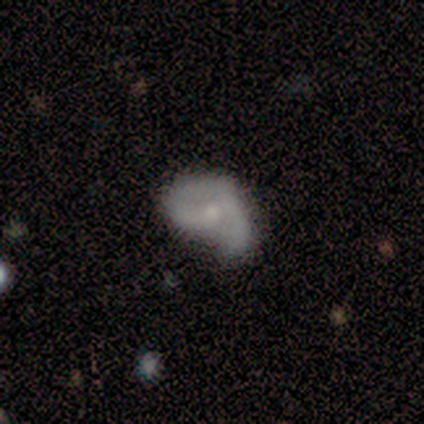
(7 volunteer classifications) smooth_or_featured: smooth (p=0.57) [alt: featured or disk p=0.43]
how_rounded: in between (p=0.75) [alt: round p=0.25]
merging: major disturbance (p=0.43) [alt: none p=0.29]